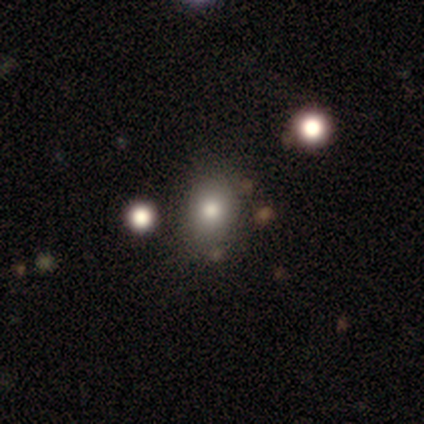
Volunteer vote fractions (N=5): Overall: smooth (100%). How rounded: round (60%; in between 40%). Merging: none (40%; minor disturbance 20%).